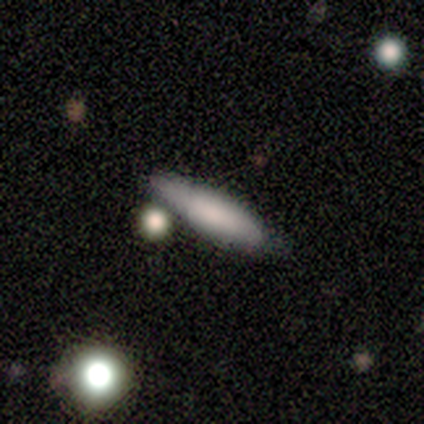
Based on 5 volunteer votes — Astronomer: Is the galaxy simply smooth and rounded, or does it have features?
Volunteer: smooth — 80%.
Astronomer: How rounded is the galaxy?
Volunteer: cigar-shaped — 75%.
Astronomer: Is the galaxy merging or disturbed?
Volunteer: none — 40%, tied with minor disturbance at 40%.